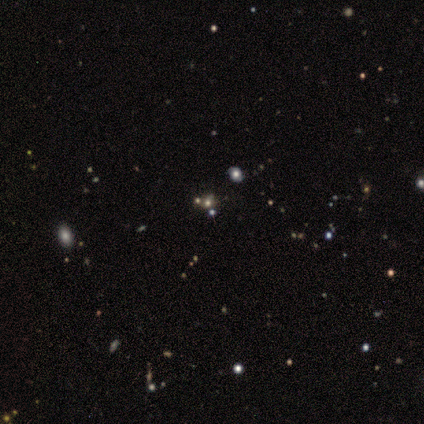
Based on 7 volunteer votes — smooth_or_featured: star or artifact (p=0.57) [alt: smooth p=0.29]